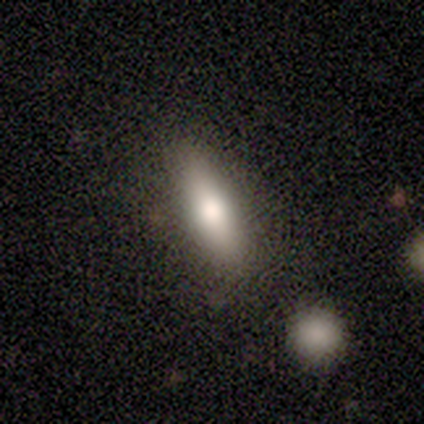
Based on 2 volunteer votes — A smooth galaxy with no disk features (100%) that is in between round and cigar-shaped (50%, tied with cigar-shaped). Merging: none (100%).